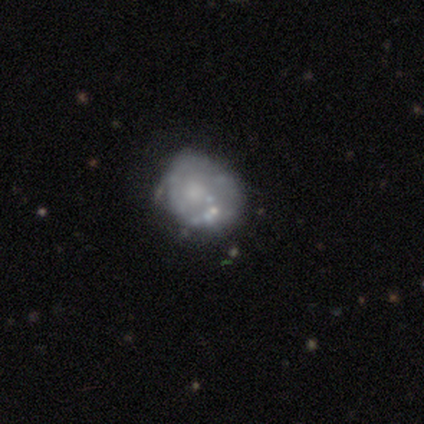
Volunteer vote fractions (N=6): Morphology: type=smooth (33%, tied with featured or disk and star or artifact); roundness=round (100%); merging=none (100%).